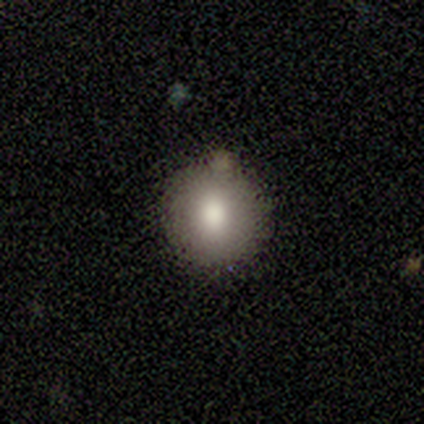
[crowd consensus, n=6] A smooth galaxy with no disk features (100%) that is round (100%). Merging: none (100%).